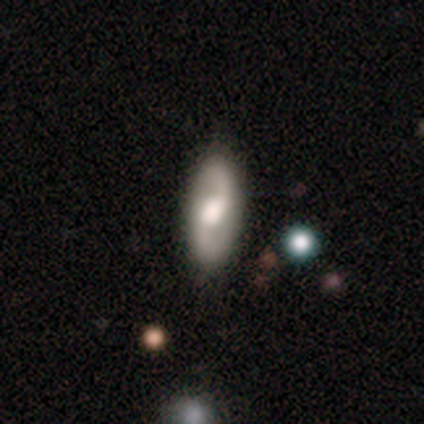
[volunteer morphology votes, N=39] smooth-or-featured: featured or disk: 74% | smooth: 23% | star or artifact: 3%
  disk-edge-on: no: 93% | yes: 7%
    bar: no: 63% | weak: 26% | strong: 11%
    has-spiral-arms: yes: 89% | no: 11%
      spiral-winding: loose: 71% | medium: 25% | tight: 4%
      spiral-arm-count: 2: 92% | 3: 4% | can't tell: 4% | 1: 0% | 4: 0% | more than 4: 0%
    bulge-size: moderate: 48% | large: 37% | small: 7% | dominant: 4% | none: 4%
  merging: none: 79% | minor disturbance: 8% | major disturbance: 8% | merger: 5%